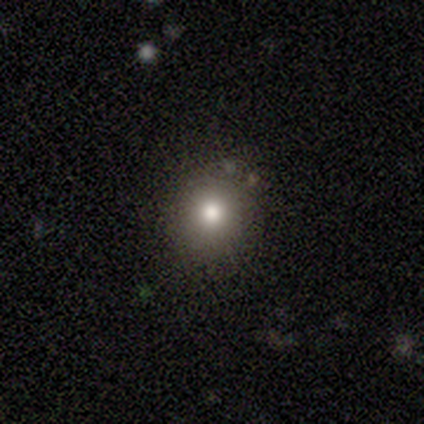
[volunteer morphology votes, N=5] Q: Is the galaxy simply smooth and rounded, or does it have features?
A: smooth — 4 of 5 (80%).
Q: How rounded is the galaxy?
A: round — 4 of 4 (100%).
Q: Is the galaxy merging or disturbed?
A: none — 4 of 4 (100%).